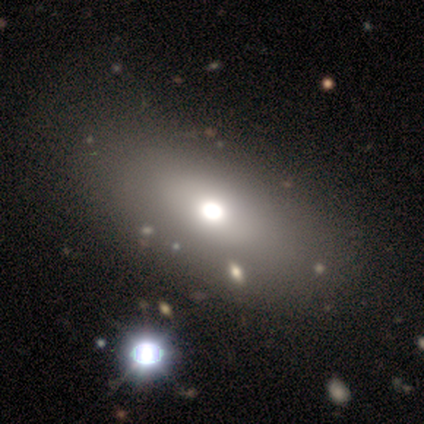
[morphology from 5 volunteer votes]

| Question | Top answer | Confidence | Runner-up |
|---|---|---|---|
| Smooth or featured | smooth | 80% | star or artifact (20%) |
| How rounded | in between | 75% | cigar-shaped (25%) |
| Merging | none | 100% | — |